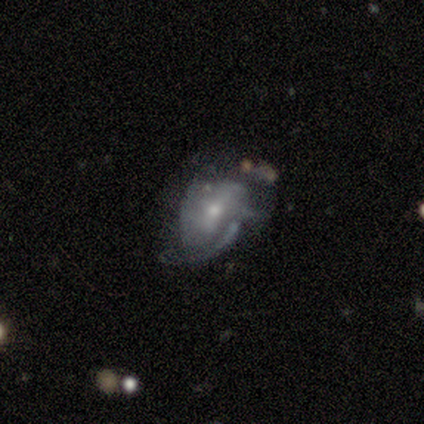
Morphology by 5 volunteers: Overall: featured or disk (80%). Edge-on disk: no (100%). Bar: weak (100%). Spiral arms: no (75%). Bulge size: small (75%). Merging: minor disturbance (80%).